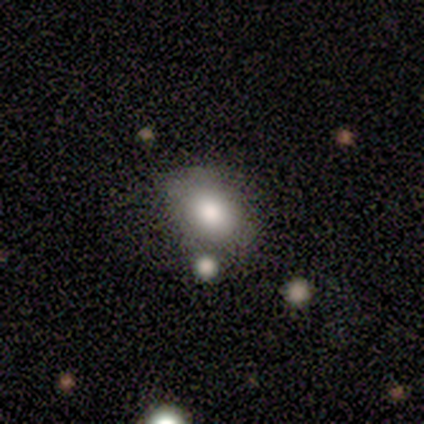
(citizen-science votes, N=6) Smooth or featured: smooth — 67% (featured or disk — 33%)
How rounded: round — 50% (tied with in between — 50%)
Merging: minor disturbance — 67% (none — 33%)